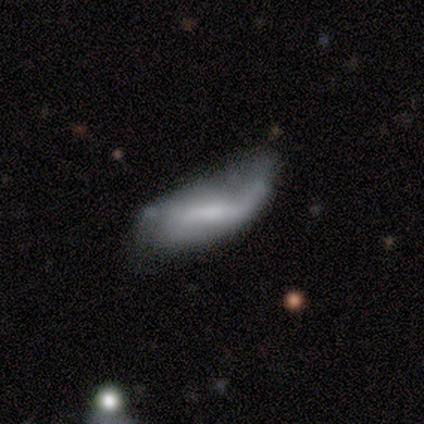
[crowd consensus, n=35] Smooth or featured? featured or disk (54%)
Edge-on disk? no (95%)
Bar? weak (50%)
Spiral arms? yes (83%)
Spiral winding? loose (100%)
Spiral arm count? 1 (47%)
Bulge size? none (50%)
Merging? minor disturbance (47%)